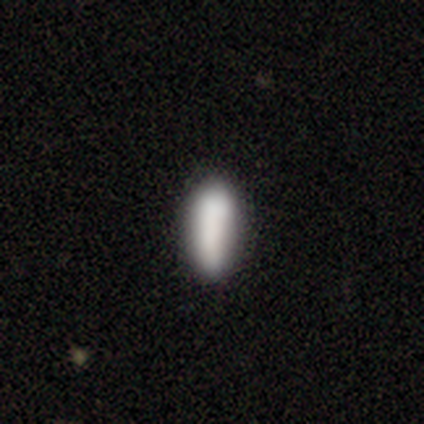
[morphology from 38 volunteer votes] Smooth or featured? 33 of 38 (87%) said smooth. How rounded? 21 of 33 (64%) said in between. Merging? 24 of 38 (63%) said none.